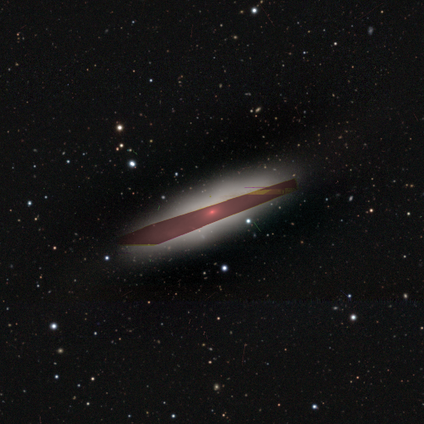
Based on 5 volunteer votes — Morphology: type=smooth (60%); roundness=cigar-shaped (67%); merging=none (100%).